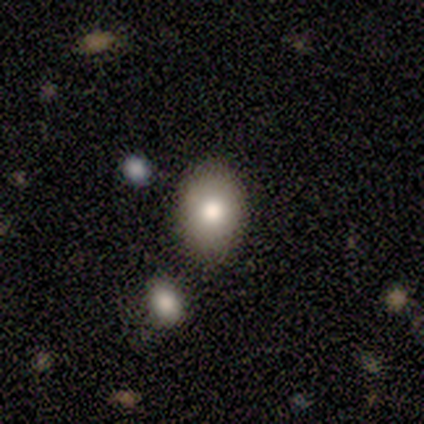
A smooth galaxy with no disk features (100%) that is in between round and cigar-shaped (60%).

Vote fractions:
- Smooth or featured? smooth: 100% / featured or disk: 0% / star or artifact: 0%
- How rounded? in between: 60% / round: 40% / cigar-shaped: 0%
- Merging? none: 100% / minor disturbance: 0% / major disturbance: 0% / merger: 0%